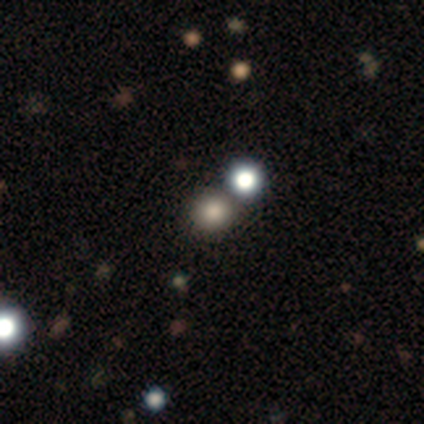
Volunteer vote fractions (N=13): smooth-or-featured: smooth: 69% | star or artifact: 23% | featured or disk: 8%
  how-rounded: round: 89% | in between: 11% | cigar-shaped: 0%
  merging: none: 80% | minor disturbance: 10% | merger: 10% | major disturbance: 0%